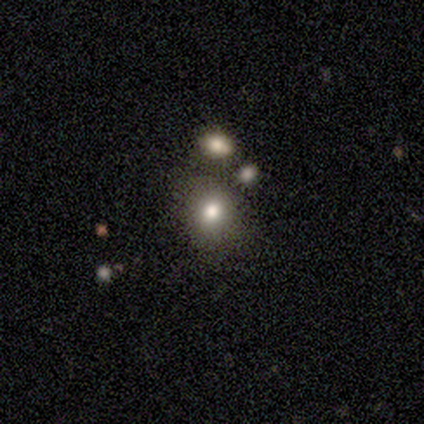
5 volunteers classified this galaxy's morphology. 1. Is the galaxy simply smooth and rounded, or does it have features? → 60% smooth, 40% featured or disk, 0% star or artifact.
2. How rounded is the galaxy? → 100% round, 0% in between, 0% cigar-shaped.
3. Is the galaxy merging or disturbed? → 60% none, 20% minor disturbance, 20% merger, 0% major disturbance.